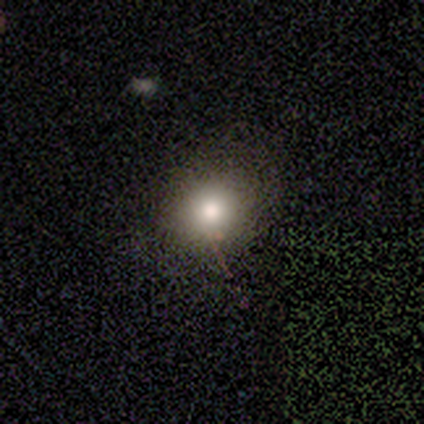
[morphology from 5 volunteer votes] Q: Smooth or featured?
A: smooth (100%)
Q: How rounded?
A: round (100%)
Q: Merging?
A: none (100%)